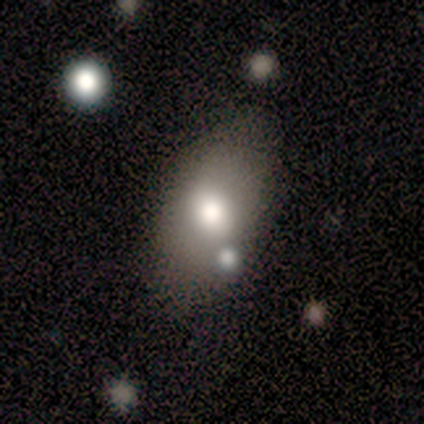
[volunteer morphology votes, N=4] type=smooth (50%); roundness=in between (100%); merging=none (67%).